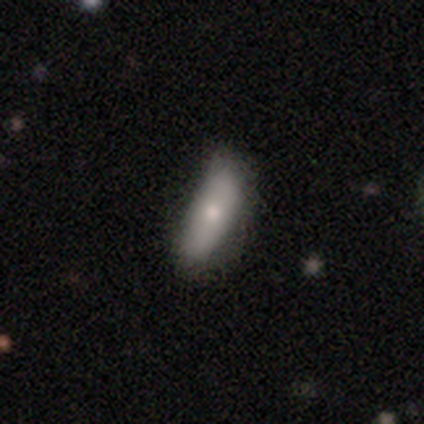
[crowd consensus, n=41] This appears to be a smooth galaxy with no disk features (76%) that is in between round and cigar-shaped (68%). Merging: none (54%).